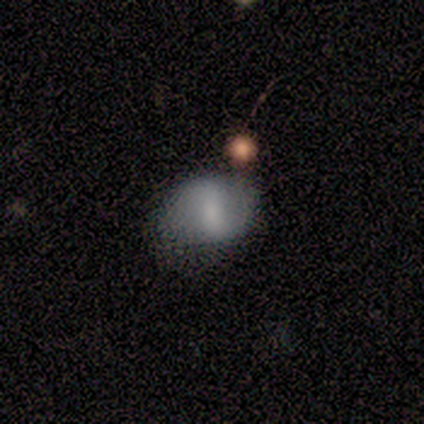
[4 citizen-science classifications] Smooth or featured?
  - smooth: 100% *
  - featured or disk: 0%
  - star or artifact: 0%
How rounded?
  - round: 50% * (tied)
  - in between: 50% * (tied)
  - cigar-shaped: 0%
Merging?
  - none: 50% * (tied)
  - minor disturbance: 50% * (tied)
  - major disturbance: 0%
  - merger: 0%